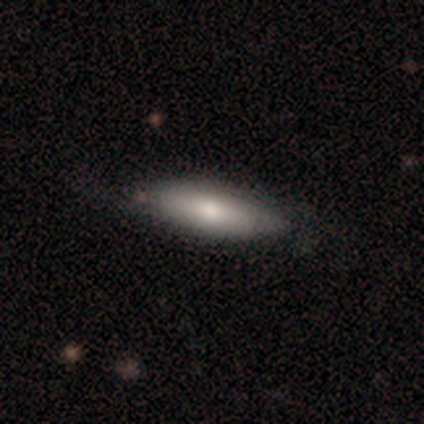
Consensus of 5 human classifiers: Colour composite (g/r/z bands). It shows a smooth galaxy with no disk features (100%) that is cigar-shaped (60%). Merging: none (60%).